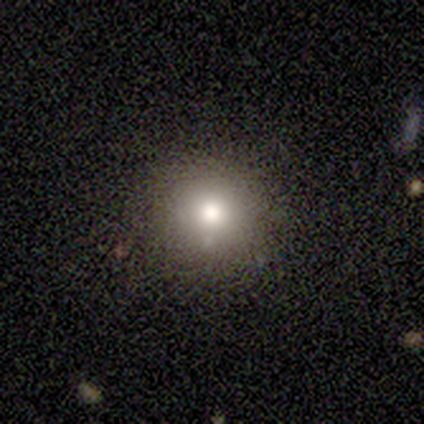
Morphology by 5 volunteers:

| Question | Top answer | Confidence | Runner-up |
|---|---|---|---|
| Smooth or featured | smooth | 40% | tied: star or artifact (40%) |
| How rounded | round | 100% | — |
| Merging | none | 100% | — |